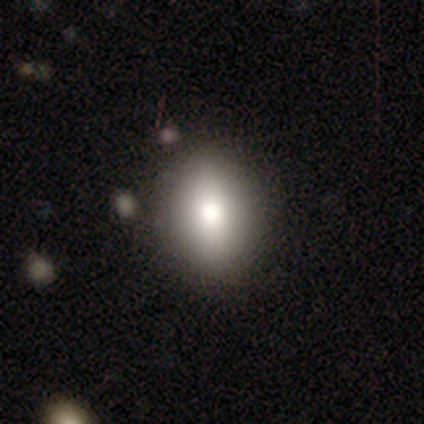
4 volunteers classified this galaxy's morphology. Smooth or featured?
  - smooth: 100% *
  - featured or disk: 0%
  - star or artifact: 0%
How rounded?
  - in between: 100% *
  - round: 0%
  - cigar-shaped: 0%
Merging?
  - none: 100% *
  - minor disturbance: 0%
  - major disturbance: 0%
  - merger: 0%